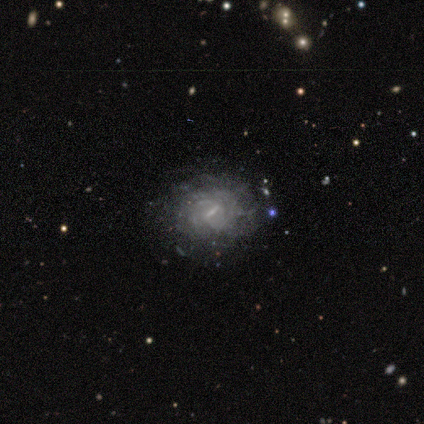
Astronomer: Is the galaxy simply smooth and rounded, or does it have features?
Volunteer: featured or disk — 80%.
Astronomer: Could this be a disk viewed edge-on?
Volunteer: no — 100%.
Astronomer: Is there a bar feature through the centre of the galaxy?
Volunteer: strong — 50%.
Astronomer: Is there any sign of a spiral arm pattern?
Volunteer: yes — 75%.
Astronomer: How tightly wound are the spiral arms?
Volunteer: tight — 67%.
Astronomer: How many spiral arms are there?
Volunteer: can't tell — 100%.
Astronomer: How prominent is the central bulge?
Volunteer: small — 100%.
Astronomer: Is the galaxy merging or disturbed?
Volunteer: none — 75%.